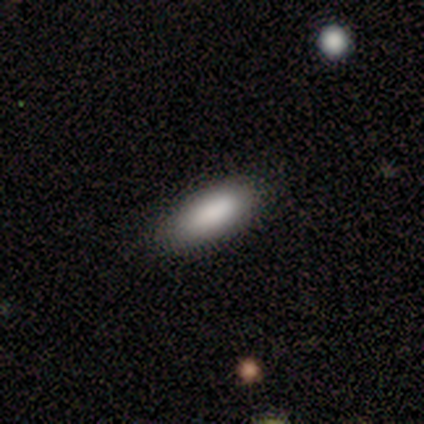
A smooth galaxy with no disk features (100%) that is in between round and cigar-shaped (62%). Merging: none (50%, tied with minor disturbance).